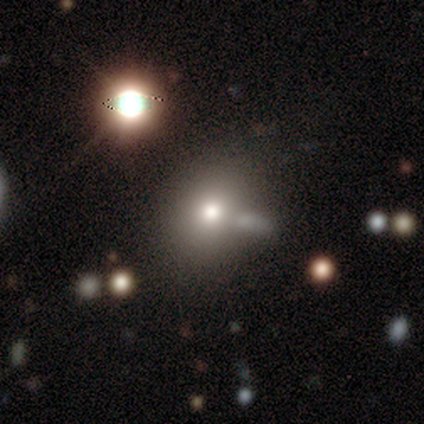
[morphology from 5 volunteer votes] A smooth galaxy with no disk features (60%) that is round (100%).

Vote fractions:
- Smooth or featured? smooth: 60% / featured or disk: 40% / star or artifact: 0%
- How rounded? round: 100% / in between: 0% / cigar-shaped: 0%
- Merging? none: 80% / merger: 20% / minor disturbance: 0% / major disturbance: 0%